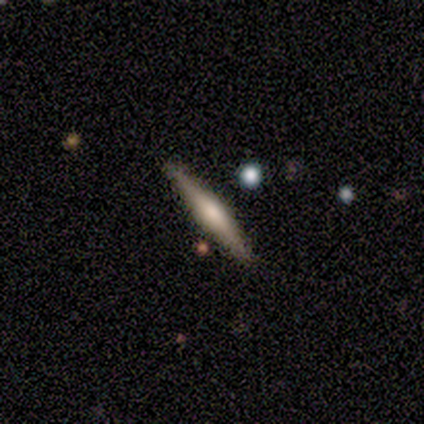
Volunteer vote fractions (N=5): featured or disk 80%, star or artifact 20%, smooth 0%. Down the decision tree: edge-on disk — yes (100%); edge-on bulge — rounded (75%); merging — none (100%).